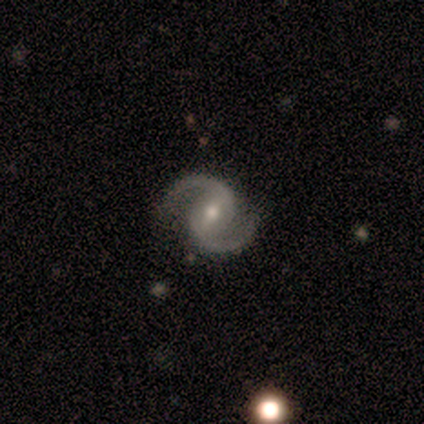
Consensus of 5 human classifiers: Q: Smooth or featured?
A: featured or disk (100%)
Q: Edge-on disk?
A: no (100%)
Q: Bar?
A: strong (40%); tied with: weak (40%)
Q: Spiral arms?
A: yes (100%)
Q: Spiral winding?
A: medium (60%); runner-up: tight (20%)
Q: Spiral arm count?
A: 2 (100%)
Q: Bulge size?
A: moderate (60%); runner-up: small (40%)
Q: Merging?
A: none (60%); runner-up: minor disturbance (40%)